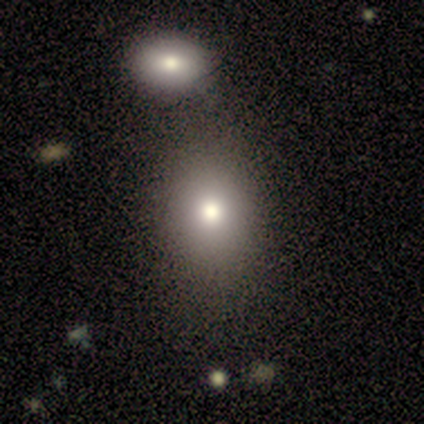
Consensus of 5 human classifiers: Smooth or featured?
  - smooth: 80% *
  - star or artifact: 20%
  - featured or disk: 0%
How rounded?
  - round: 75% *
  - in between: 25%
  - cigar-shaped: 0%
Merging?
  - none: 100% *
  - minor disturbance: 0%
  - major disturbance: 0%
  - merger: 0%